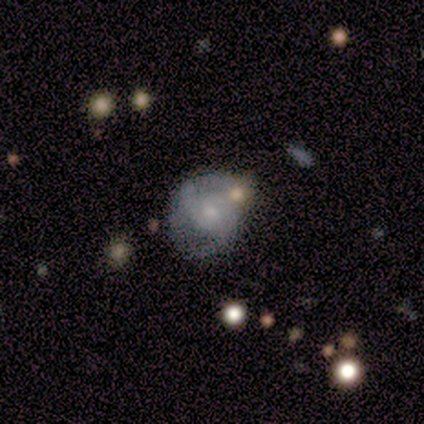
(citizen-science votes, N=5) Overall: featured or disk (80%). Edge-on disk: no (75%). Bar: weak (67%; no 33%). Spiral arms: yes (100%). Spiral arm count: 2 (33%, tied with 4 and can't tell). Spiral winding: medium (67%; loose 33%). Bulge size: small (67%; moderate 33%). Merging: none (40%; minor disturbance 20%).